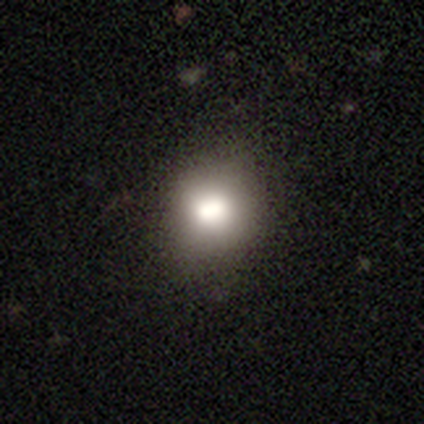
A smooth galaxy with no disk features (100%) that is round (100%).

Vote fractions:
- Smooth or featured? smooth: 100% / featured or disk: 0% / star or artifact: 0%
- How rounded? round: 100% / in between: 0% / cigar-shaped: 0%
- Merging? none: 100% / minor disturbance: 0% / major disturbance: 0% / merger: 0%